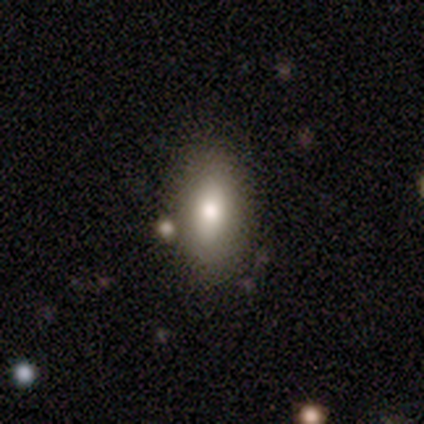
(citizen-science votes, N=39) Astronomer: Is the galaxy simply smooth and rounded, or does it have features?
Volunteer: smooth — 87%.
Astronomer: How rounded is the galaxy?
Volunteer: in between — 85%.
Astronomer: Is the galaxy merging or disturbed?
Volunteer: none — 78%.